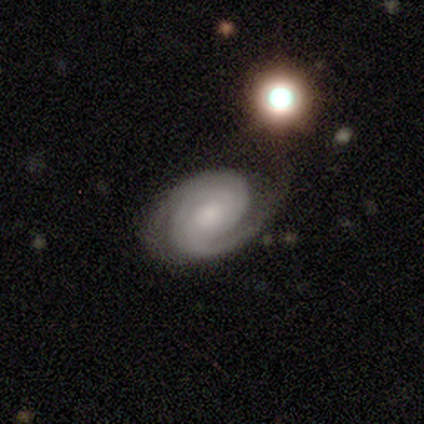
Smooth or featured: featured or disk — 84% (smooth — 14%)
Edge-on disk: no — 94% (yes — 6%)
Bar: no — 69% (weak — 31%)
Spiral arms: yes — 97% (no — 3%)
Spiral winding: tight — 68% (medium — 18%)
Spiral arm count: 2 — 79% (can't tell — 14%)
Bulge size: moderate — 45% (small — 38%)
Merging: none — 78% (minor disturbance — 17%)